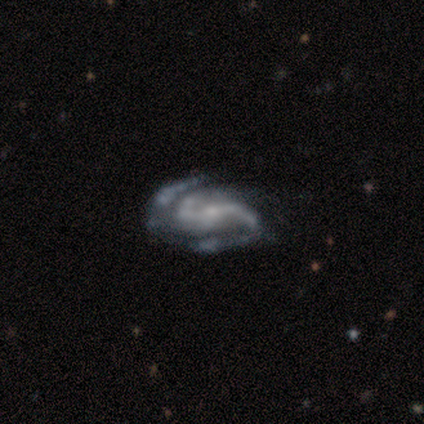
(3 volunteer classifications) Smooth or featured?
  - featured or disk: 100% *
  - smooth: 0%
  - star or artifact: 0%
Edge-on disk?
  - no: 100% *
  - yes: 0%
Bar?
  - strong: 67% *
  - no: 33%
  - weak: 0%
Spiral arms?
  - yes: 100% *
  - no: 0%
Spiral winding?
  - medium: 100% *
  - tight: 0%
  - loose: 0%
Spiral arm count?
  - 2: 67% *
  - can't tell: 33%
  - 1: 0%
  - 3: 0%
  - 4: 0%
  - more than 4: 0%
Bulge size?
  - small: 100% *
  - dominant: 0%
  - large: 0%
  - moderate: 0%
  - none: 0%
Merging?
  - minor disturbance: 67% *
  - none: 33%
  - major disturbance: 0%
  - merger: 0%